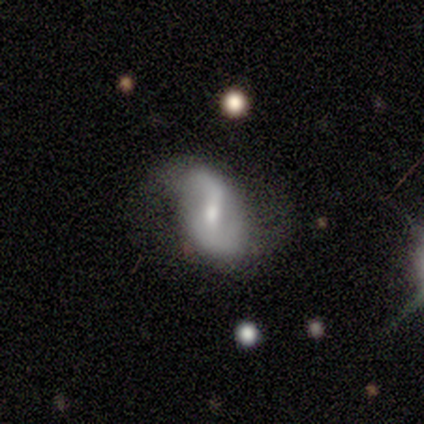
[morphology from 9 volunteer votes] type=featured or disk (89%); edge-on=no (88%); bar=weak (57%); spiral arms=yes (86%); winding=loose (50%); arm count=2 (83%); bulge=small (71%); merging=none (44%, tied with minor disturbance).